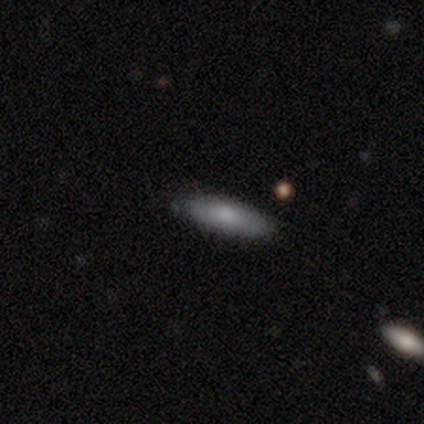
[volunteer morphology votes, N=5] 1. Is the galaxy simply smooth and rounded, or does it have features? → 100% smooth, 0% featured or disk, 0% star or artifact.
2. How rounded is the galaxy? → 60% cigar-shaped, 40% in between, 0% round.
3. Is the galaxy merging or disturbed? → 80% none, 20% minor disturbance, 0% major disturbance, 0% merger.